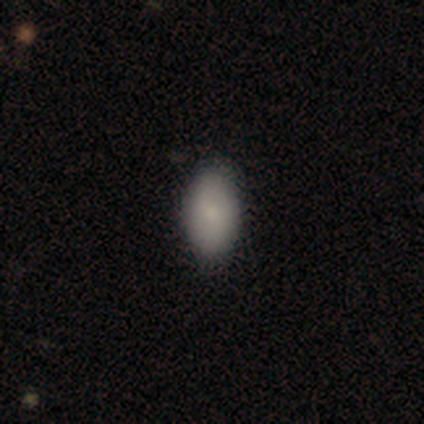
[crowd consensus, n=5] Smooth or featured: smooth — 100%
How rounded: in between — 100%
Merging: none — 100%